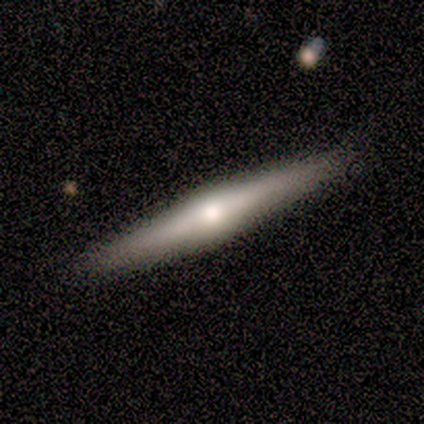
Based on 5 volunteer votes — This is clearly a featured or disk galaxy (80%). It is clearly viewed edge-on (100%). Edge-on bulge: clearly rounded (100%). Merging: clearly none (80%).